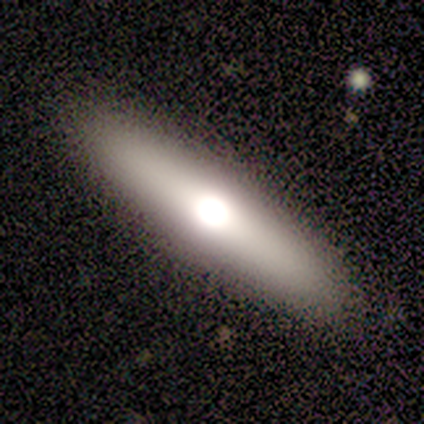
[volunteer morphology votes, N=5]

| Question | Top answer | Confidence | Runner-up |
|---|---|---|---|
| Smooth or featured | featured or disk | 60% | smooth (20%) |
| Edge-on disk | yes | 100% | — |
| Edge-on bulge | rounded | 67% | boxy (33%) |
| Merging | none | 75% | minor disturbance (25%) |